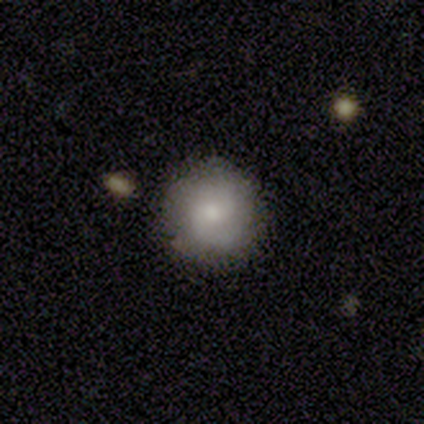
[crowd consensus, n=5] Morphology: type=featured or disk (60%); edge-on=no (100%); bar=no (67%); spiral arms=yes (100%); winding=medium (67%); arm count=2 (100%); bulge=moderate (67%); merging=none (80%).